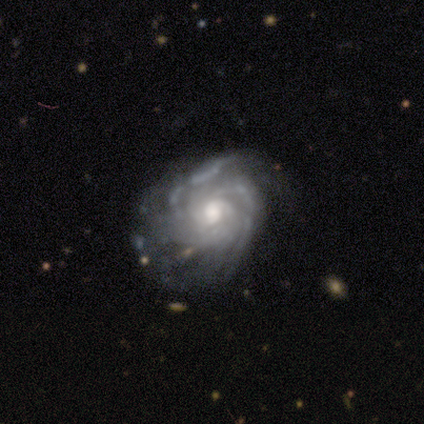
A featured or disk galaxy (92%) with no bar (100%), tight (70%) spiral arms (91%) and a moderate central bulge (73%). Merging: none (58%).